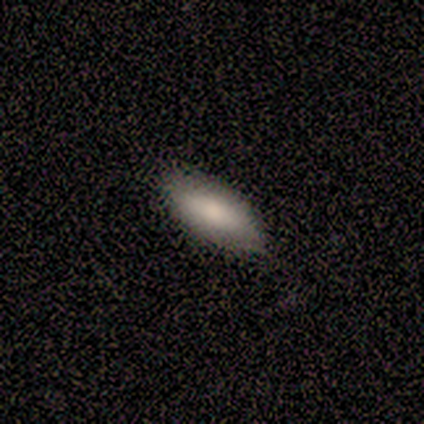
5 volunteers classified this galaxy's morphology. smooth-or-featured: smooth: 80% | star or artifact: 20% | featured or disk: 0%
  how-rounded: in between: 50% (tied) | cigar-shaped: 50% (tied) | round: 0%
  merging: none: 75% | minor disturbance: 25% | major disturbance: 0% | merger: 0%